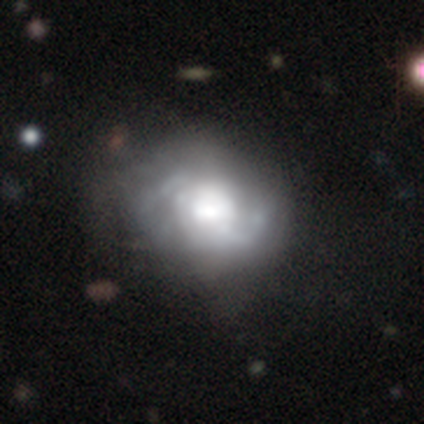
Overall: featured or disk (71%). Edge-on disk: no (97%). Bar: no (53%; weak 36%). Spiral arms: yes (97%). Spiral arm count: 2 (57%; can't tell 34%). Spiral winding: medium (46%; tight 31%). Bulge size: large (53%; dominant 25%). Merging: none (51%; minor disturbance 28%).